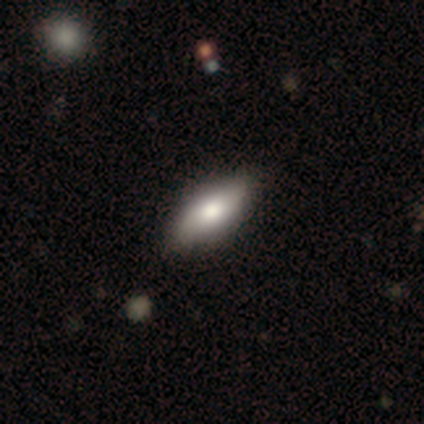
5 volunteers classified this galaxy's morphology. smooth-or-featured: smooth: 100% | featured or disk: 0% | star or artifact: 0%
  how-rounded: in between: 80% | cigar-shaped: 20% | round: 0%
  merging: none: 80% | major disturbance: 20% | minor disturbance: 0% | merger: 0%